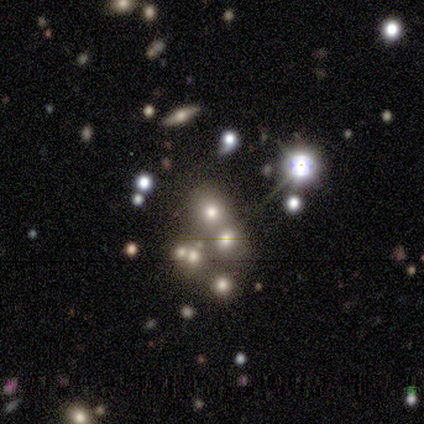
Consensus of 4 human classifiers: Smooth or featured? smooth (50%)
How rounded? round (50%, tied with in between)
Merging? merger (67%)